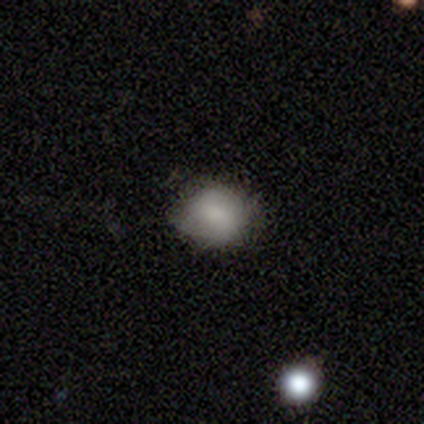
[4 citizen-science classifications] Q: Smooth or featured?
A: smooth (75%); runner-up: star or artifact (25%)
Q: How rounded?
A: round (67%); runner-up: in between (33%)
Q: Merging?
A: none (100%)